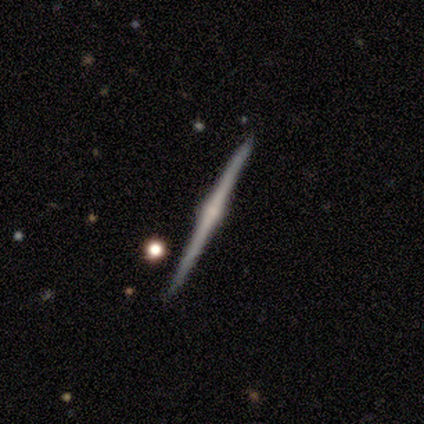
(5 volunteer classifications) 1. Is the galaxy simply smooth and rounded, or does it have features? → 100% featured or disk, 0% smooth, 0% star or artifact.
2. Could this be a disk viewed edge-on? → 100% yes, 0% no.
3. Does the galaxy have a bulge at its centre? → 80% rounded, 20% none, 0% boxy.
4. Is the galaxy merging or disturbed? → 80% none, 20% minor disturbance, 0% major disturbance, 0% merger.